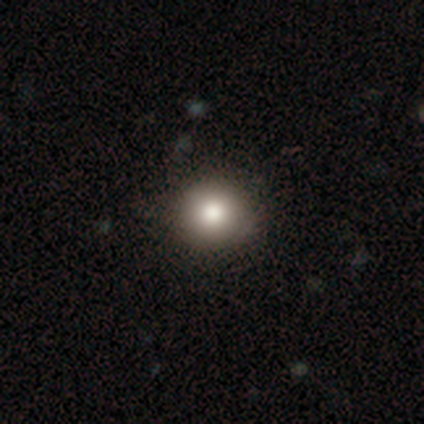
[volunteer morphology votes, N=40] This appears to be a smooth galaxy with no disk features (82%) that is round (91%). Merging: none (73%).